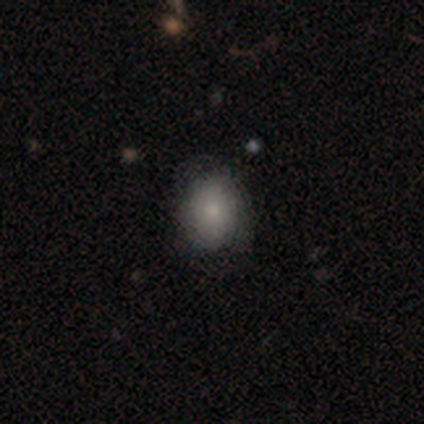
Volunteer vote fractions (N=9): smooth_or_featured: smooth (p=0.67) [alt: star or artifact p=0.22]
how_rounded: round (p=0.83) [alt: in between p=0.17]
merging: none (p=0.86) [alt: minor disturbance p=0.14]